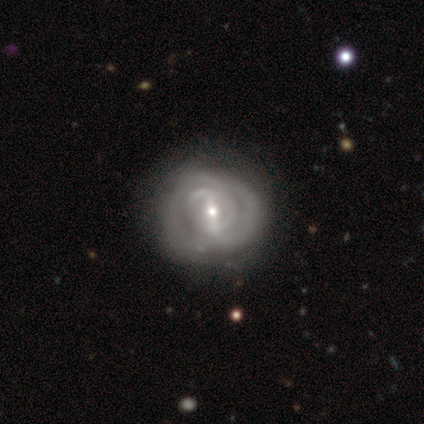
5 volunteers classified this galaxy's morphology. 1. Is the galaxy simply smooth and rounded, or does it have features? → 80% featured or disk, 20% star or artifact, 0% smooth.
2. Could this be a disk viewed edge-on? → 100% no, 0% yes.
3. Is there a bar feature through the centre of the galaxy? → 75% strong, 25% weak, 0% no.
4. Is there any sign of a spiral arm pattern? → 75% yes, 25% no.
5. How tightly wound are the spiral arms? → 100% medium, 0% tight, 0% loose.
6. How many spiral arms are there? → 100% can't tell, 0% 1, 0% 2, 0% 3, 0% 4, 0% more than 4.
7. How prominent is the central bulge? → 50% small, 25% large, 25% moderate, 0% dominant, 0% none.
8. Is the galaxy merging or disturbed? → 50% minor disturbance, 25% none, 25% major disturbance, 0% merger.